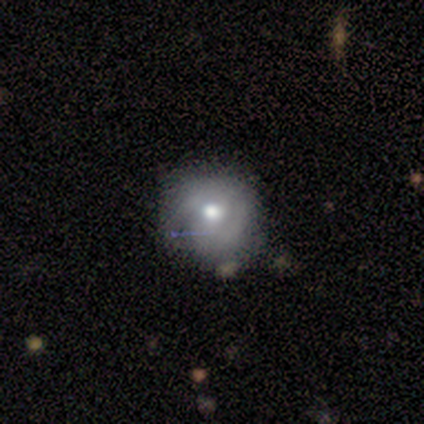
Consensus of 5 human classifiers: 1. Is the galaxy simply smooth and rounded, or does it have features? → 40% smooth (tied), 40% featured or disk (tied), 20% star or artifact.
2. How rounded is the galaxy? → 100% round, 0% in between, 0% cigar-shaped.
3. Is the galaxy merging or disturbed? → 50% none (tied), 50% minor disturbance (tied), 0% major disturbance, 0% merger.